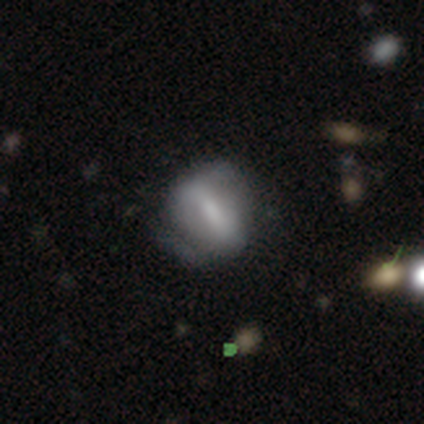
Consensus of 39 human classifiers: Smooth or featured? 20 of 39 (51%) said featured or disk. Edge-on disk? 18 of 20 (90%) said no. Bar? 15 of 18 (83%) said strong. Spiral arms? 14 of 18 (78%) said yes. Spiral winding? 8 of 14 (57%) said medium. Spiral arm count? 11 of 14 (79%) said 2. Bulge size? 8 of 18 (44%) said moderate. Merging? 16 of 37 (43%) said none.